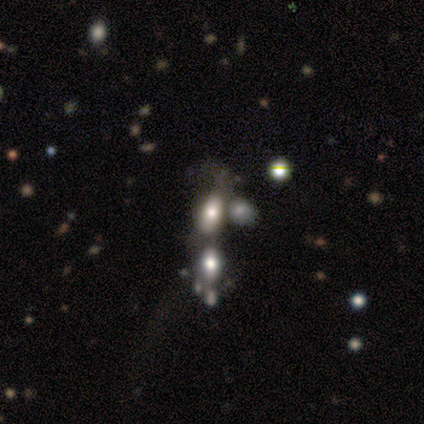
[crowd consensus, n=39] A smooth galaxy with no disk features (46%) that is in between round and cigar-shaped (83%).

Vote fractions:
- Smooth or featured? smooth: 46% / featured or disk: 36% / star or artifact: 18%
- How rounded? in between: 83% / round: 17% / cigar-shaped: 0%
- Merging? merger: 66% / none: 16% / minor disturbance: 9% / major disturbance: 9%